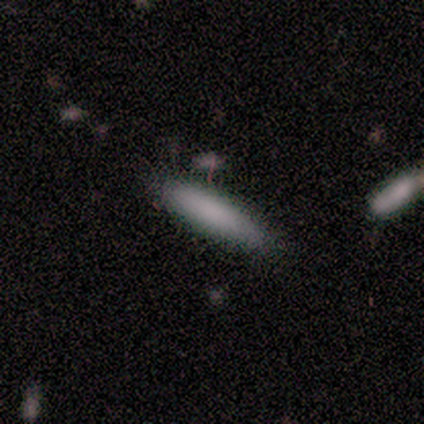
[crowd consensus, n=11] smooth 100%, featured or disk 0%, star or artifact 0%. Down the decision tree: how rounded — cigar-shaped (82%); merging — none (82%).